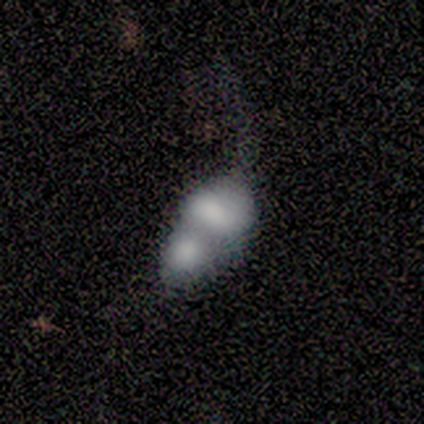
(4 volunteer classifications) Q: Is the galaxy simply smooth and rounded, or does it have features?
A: smooth — 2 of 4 (50%).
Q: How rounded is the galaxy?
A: round — 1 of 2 (50%, tied with in between).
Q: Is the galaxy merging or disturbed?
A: merger — 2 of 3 (67%).